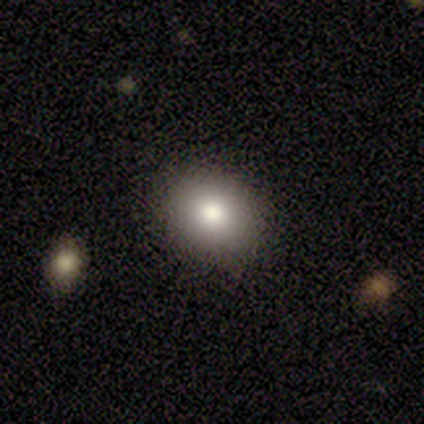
smooth 77%, star or artifact 15%, featured or disk 8%. Down the decision tree: how rounded — round (60%); merging — none (88%).